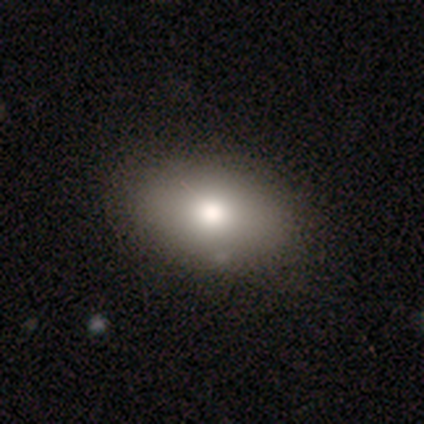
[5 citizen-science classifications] Smooth or featured: smooth — 80% (star or artifact — 20%)
How rounded: in between — 100%
Merging: none — 75% (minor disturbance — 25%)